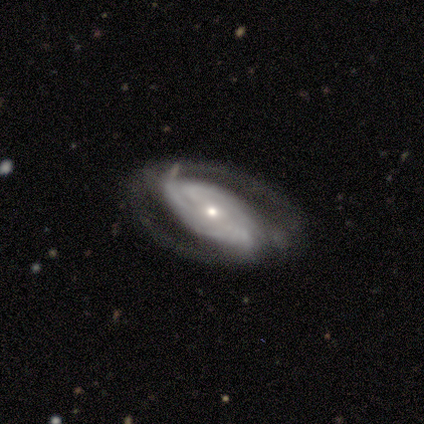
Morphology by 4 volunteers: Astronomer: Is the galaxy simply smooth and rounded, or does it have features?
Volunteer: featured or disk — 100%.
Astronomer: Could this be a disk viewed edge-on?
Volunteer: no — 75%.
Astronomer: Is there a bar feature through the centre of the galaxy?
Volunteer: strong — 33%, tied with weak and no at 33%.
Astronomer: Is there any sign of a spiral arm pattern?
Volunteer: yes — 100%.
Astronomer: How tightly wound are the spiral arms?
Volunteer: tight — 100%.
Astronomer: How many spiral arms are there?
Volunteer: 2 — 33%, tied with 3 and can't tell at 33%.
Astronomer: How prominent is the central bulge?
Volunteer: small — 100%.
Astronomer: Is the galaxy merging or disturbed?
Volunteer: major disturbance — 50%.